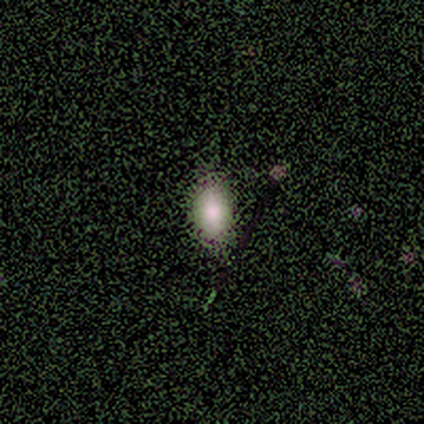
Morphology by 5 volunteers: This is clearly a smooth galaxy (100%). How rounded: clearly in between (100%). Merging: clearly none (80%).